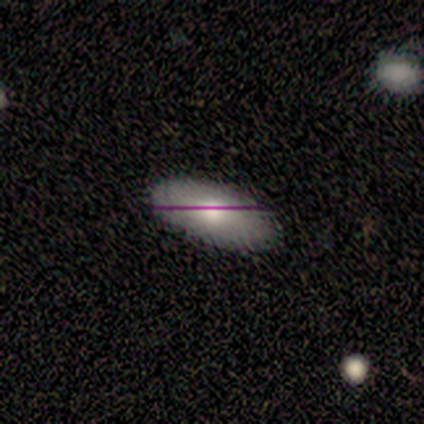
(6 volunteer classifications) Q: Smooth or featured?
A: smooth (67%); runner-up: featured or disk (17%)
Q: How rounded?
A: in between (100%)
Q: Merging?
A: none (80%); runner-up: minor disturbance (20%)